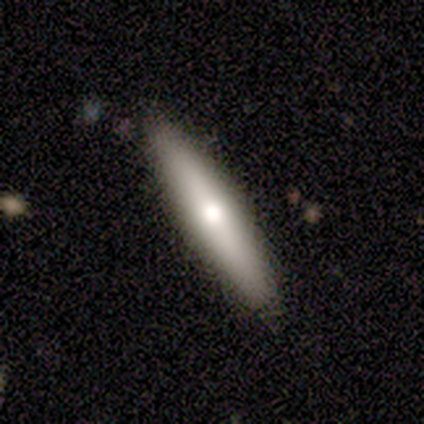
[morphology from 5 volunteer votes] Smooth or featured: smooth — 60% (featured or disk — 40%)
How rounded: cigar-shaped — 100%
Merging: none — 100%